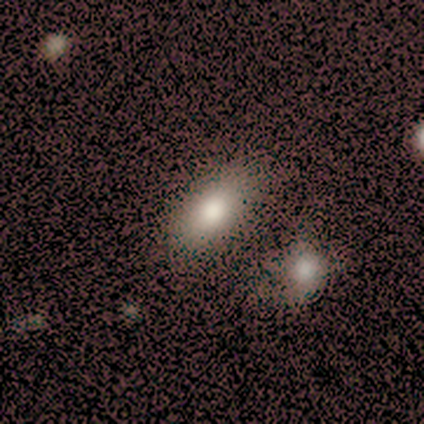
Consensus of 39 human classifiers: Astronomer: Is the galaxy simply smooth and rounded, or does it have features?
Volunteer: smooth — 74%.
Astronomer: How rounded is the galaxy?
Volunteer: in between — 90%.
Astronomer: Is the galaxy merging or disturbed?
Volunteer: none — 64%.